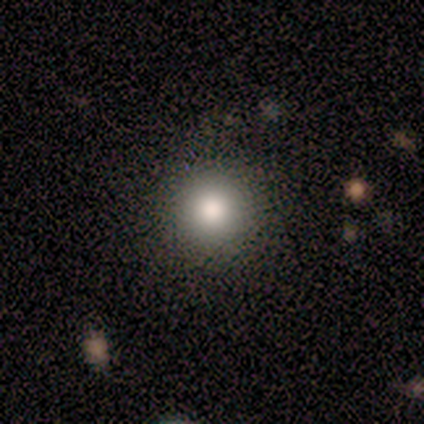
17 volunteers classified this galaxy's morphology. This appears to be a smooth galaxy with no disk features (76%) that is round (100%). Merging: none (87%).